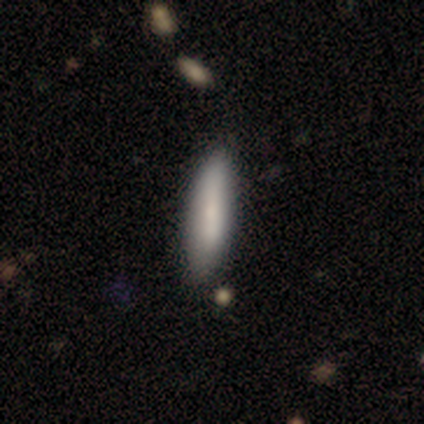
Smooth or featured? 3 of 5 (60%) said smooth. How rounded? 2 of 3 (67%) said in between. Merging? 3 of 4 (75%) said none.